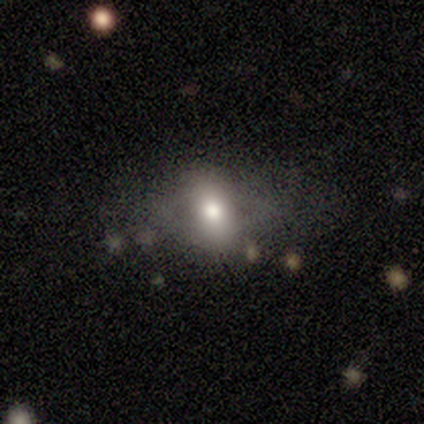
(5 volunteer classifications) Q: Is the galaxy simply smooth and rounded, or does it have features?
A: smooth — 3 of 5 (60%).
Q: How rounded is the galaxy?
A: in between — 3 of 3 (100%).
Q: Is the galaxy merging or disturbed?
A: minor disturbance — 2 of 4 (50%).